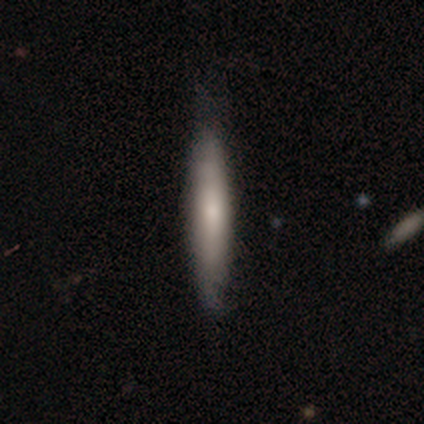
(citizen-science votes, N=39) smooth 59%, featured or disk 33%, star or artifact 8%. Down the decision tree: how rounded — cigar-shaped (100%); merging — none (61%).